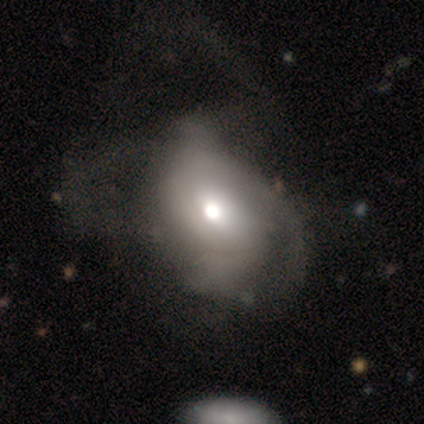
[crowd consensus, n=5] Overall: featured or disk (80%). Edge-on disk: yes (50%, tied with no). Edge-on bulge: rounded (100%). Merging: none (40%, tied with major disturbance).